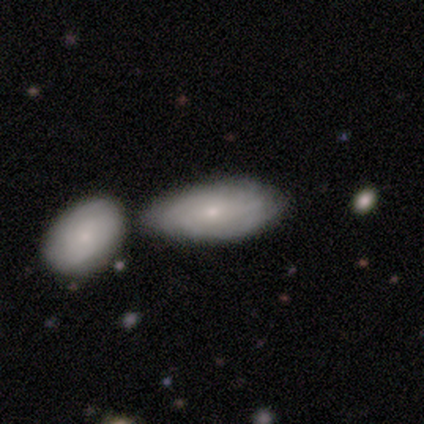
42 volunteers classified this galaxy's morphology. Smooth or featured? featured or disk (52%)
Edge-on disk? no (95%)
Bar? no (86%)
Spiral arms? yes (62%)
Spiral winding? tight (77%)
Spiral arm count? can't tell (62%)
Bulge size? small (71%)
Merging? none (42%)